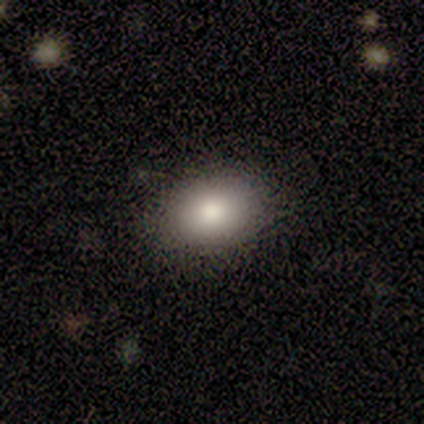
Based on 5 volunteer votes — Overall: smooth (100%). How rounded: in between (100%). Merging: none (100%).